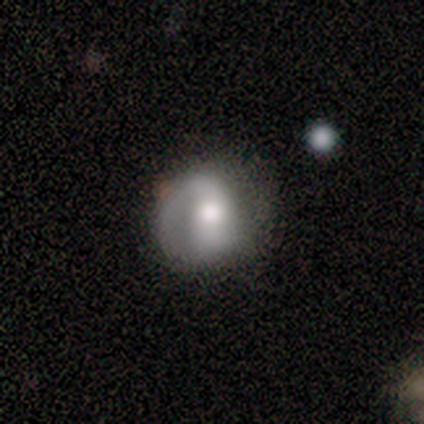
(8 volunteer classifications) A smooth galaxy with no disk features (50%, tied with featured or disk) that is round (100%).

Vote fractions:
- Smooth or featured? smooth: 50% (tied) / featured or disk: 50% (tied) / star or artifact: 0%
- How rounded? round: 100% / in between: 0% / cigar-shaped: 0%
- Merging? minor disturbance: 50% / none: 38% / major disturbance: 12% / merger: 0%